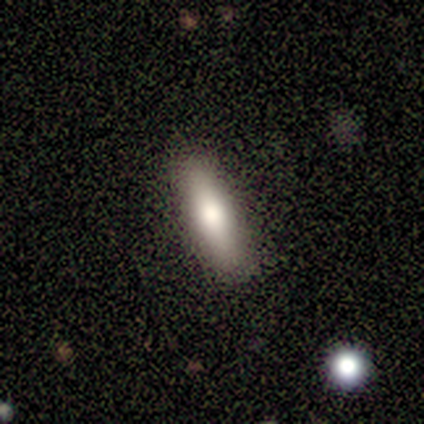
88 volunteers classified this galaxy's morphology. Smooth or featured: smooth — 70% (featured or disk — 24%)
How rounded: cigar-shaped — 66% (in between — 34%)
Merging: none — 93% (minor disturbance — 5%)